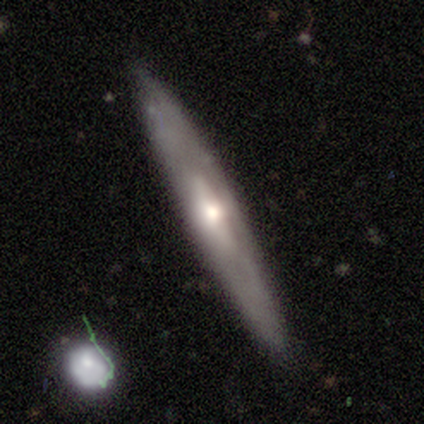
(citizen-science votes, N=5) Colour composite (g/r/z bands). It shows a featured or disk galaxy (60%) viewed edge-on (100%) with no central bulge (67%). Merging: none (40%, tied with minor disturbance).